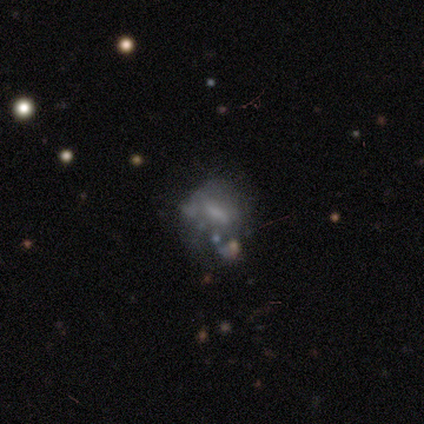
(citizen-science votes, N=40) Smooth or featured? featured or disk (57%)
Edge-on disk? no (96%)
Bar? no (50%)
Spiral arms? no (91%)
Bulge size? none (50%)
Merging? none (39%)